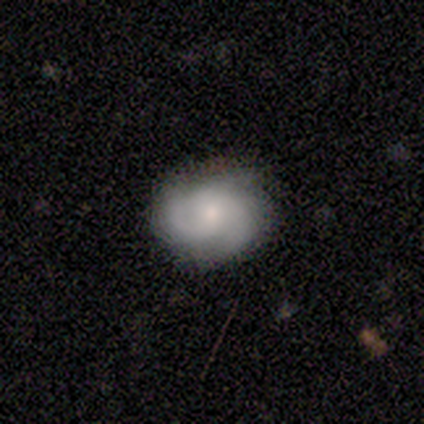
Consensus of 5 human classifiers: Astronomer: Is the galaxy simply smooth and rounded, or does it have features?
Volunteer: featured or disk — 80%.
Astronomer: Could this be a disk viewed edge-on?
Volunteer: no — 100%.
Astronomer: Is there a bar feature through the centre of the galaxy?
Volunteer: no — 100%.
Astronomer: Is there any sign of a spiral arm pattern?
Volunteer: yes — 75%.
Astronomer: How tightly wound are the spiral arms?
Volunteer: medium — 100%.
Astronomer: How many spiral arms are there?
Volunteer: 2 — 33%, tied with 3 and can't tell at 33%.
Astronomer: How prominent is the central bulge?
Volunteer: small — 100%.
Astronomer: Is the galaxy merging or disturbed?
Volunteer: none — 100%.